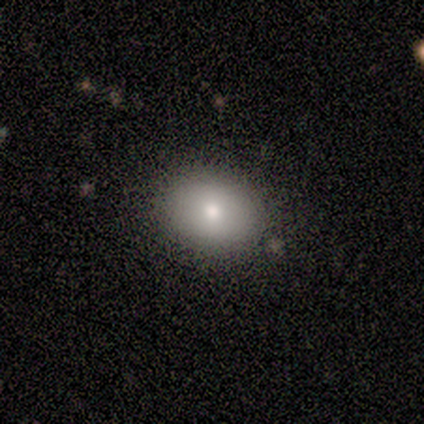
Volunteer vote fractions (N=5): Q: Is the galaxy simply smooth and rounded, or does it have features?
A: smooth — 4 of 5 (80%).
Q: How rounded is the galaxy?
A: round — 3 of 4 (75%).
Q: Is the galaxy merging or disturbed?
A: none — 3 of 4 (75%).